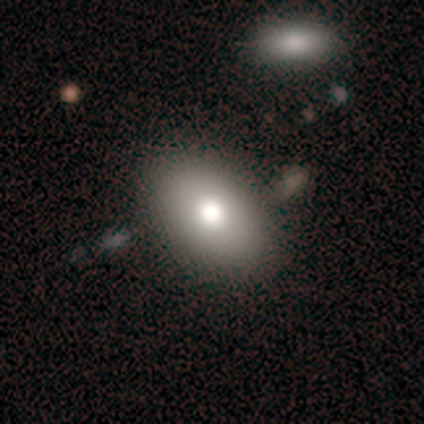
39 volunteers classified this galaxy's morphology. Smooth or featured?
  - smooth: 85% *
  - featured or disk: 8%
  - star or artifact: 8%
How rounded?
  - in between: 88% *
  - round: 12%
  - cigar-shaped: 0%
Merging?
  - none: 56% *
  - minor disturbance: 6%
  - merger: 6%
  - major disturbance: 0%